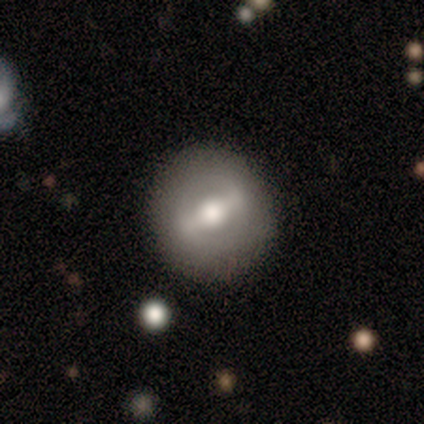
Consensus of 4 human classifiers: Overall: featured or disk (75%). Edge-on disk: no (67%; yes 33%). Bar: strong (50%, tied with no). Spiral arms: no (100%). Bulge size: large (50%, tied with moderate). Merging: none (100%).